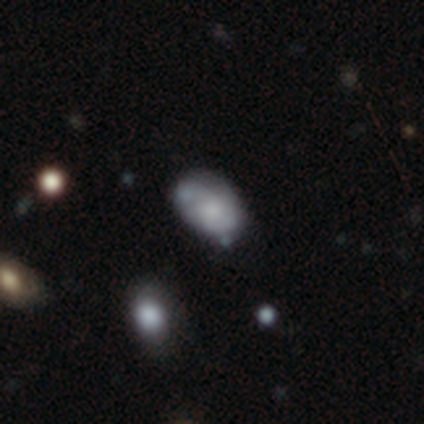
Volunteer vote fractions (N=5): Q: Smooth or featured?
A: smooth (40%); tied with: star or artifact (40%)
Q: How rounded?
A: in between (100%)
Q: Merging?
A: none (67%); runner-up: merger (33%)